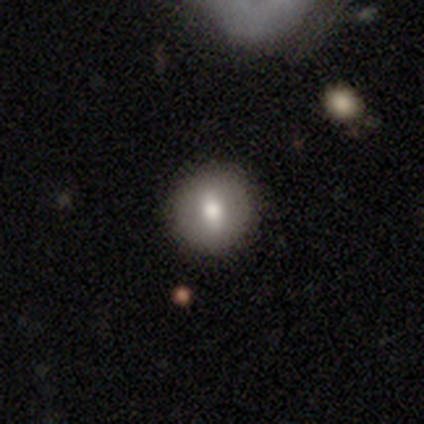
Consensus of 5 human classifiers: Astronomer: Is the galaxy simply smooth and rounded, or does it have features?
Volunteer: smooth — 100%.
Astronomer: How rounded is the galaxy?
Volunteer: round — 100%.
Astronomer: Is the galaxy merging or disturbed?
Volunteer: none — 60%.